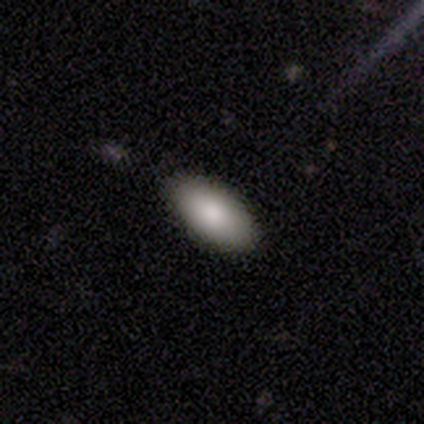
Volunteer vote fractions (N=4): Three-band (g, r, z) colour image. It shows a smooth galaxy with no disk features (75%) that is in between round and cigar-shaped (100%). Merging: none (100%).